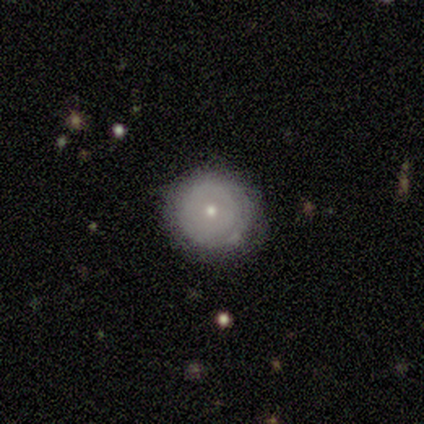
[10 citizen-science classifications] Morphology: type=smooth (80%); roundness=round (100%); merging=none (100%).